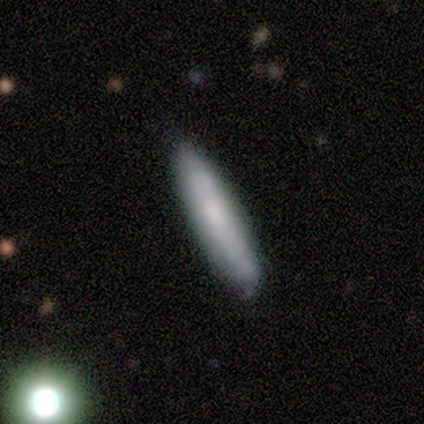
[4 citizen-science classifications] smooth 75%, featured or disk 25%, star or artifact 0%. Down the decision tree: how rounded — cigar-shaped (100%); merging — none (100%).